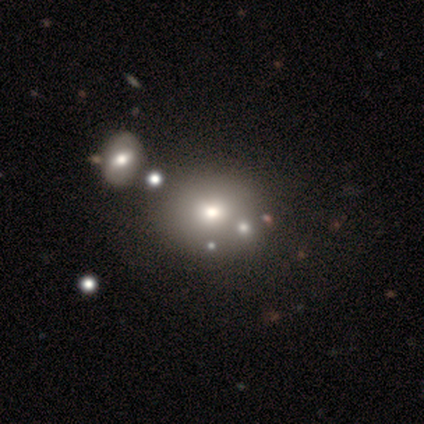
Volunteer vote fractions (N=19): smooth 53%, featured or disk 32%, star or artifact 16%. Down the decision tree: how rounded — round (70%); merging — none (88%).